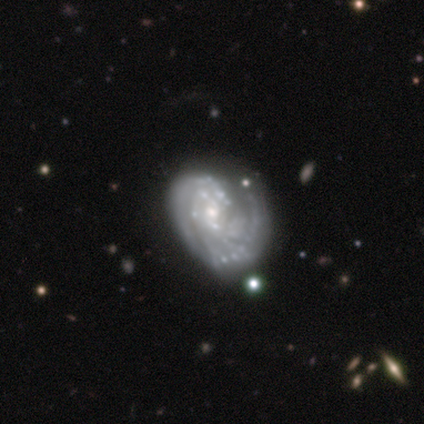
Overall: featured or disk (89%). Edge-on disk: no (88%). Bar: no (71%). Spiral arms: yes (71%). Spiral arm count: 1 (60%; 2 20%). Spiral winding: tight (60%; loose 40%). Bulge size: small (57%; moderate 29%). Merging: minor disturbance (33%; none 22%).